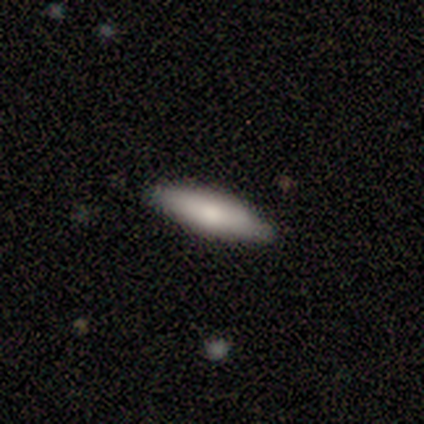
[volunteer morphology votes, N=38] Smooth or featured?
  - smooth: 68% *
  - featured or disk: 21%
  - star or artifact: 11%
How rounded?
  - cigar-shaped: 62% *
  - in between: 38%
  - round: 0%
Merging?
  - none: 88% *
  - minor disturbance: 9%
  - major disturbance: 3%
  - merger: 0%